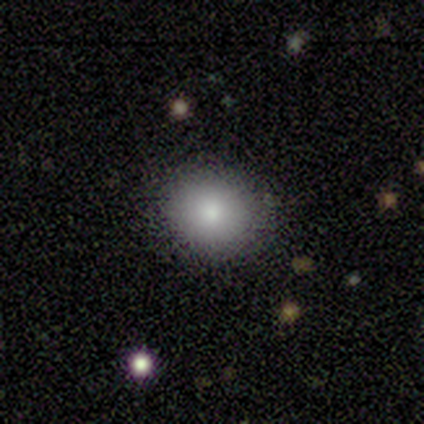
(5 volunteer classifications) smooth_or_featured: smooth (p=1.00)
how_rounded: round (p=0.80) [alt: in between p=0.20]
merging: none (p=1.00)